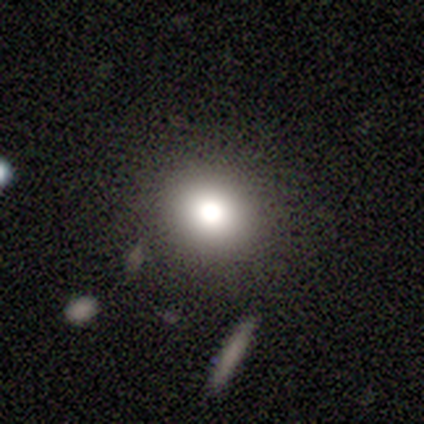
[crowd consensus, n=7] Volunteers were most divided on "smooth or featured": star or artifact: 71%, smooth: 29%, featured or disk: 0%.